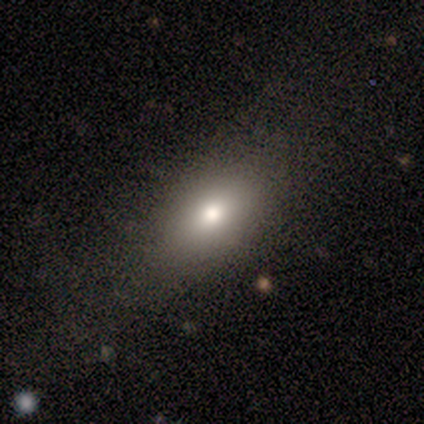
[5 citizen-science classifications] smooth_or_featured: smooth (p=0.60) [alt: featured or disk p=0.40]
how_rounded: in between (p=1.00)
merging: none (p=0.60) [alt: minor disturbance p=0.20]